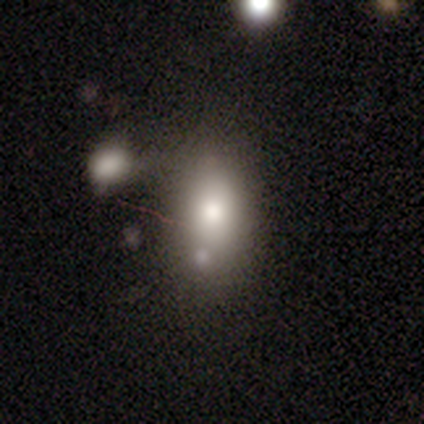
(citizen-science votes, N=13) This appears to be a smooth galaxy with no disk features (62%) that is in between round and cigar-shaped (75%). Merging: none (45%).